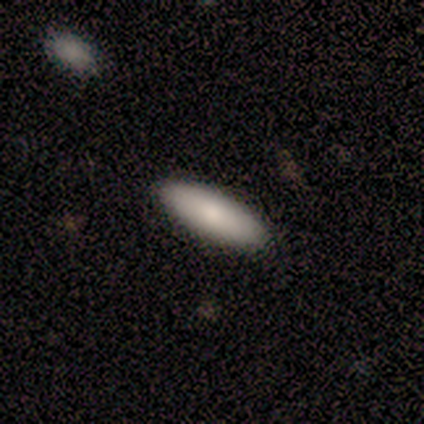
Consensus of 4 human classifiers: Q: Smooth or featured?
A: smooth (75%); runner-up: featured or disk (25%)
Q: How rounded?
A: in between (67%); runner-up: cigar-shaped (33%)
Q: Merging?
A: none (100%)